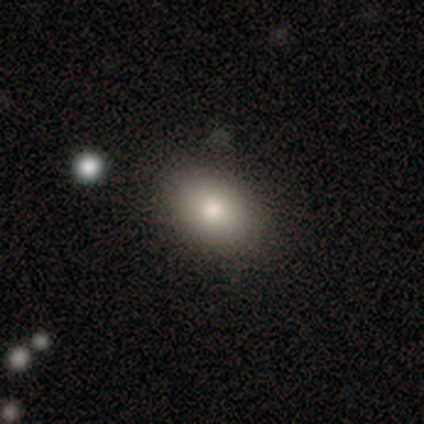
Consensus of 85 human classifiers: smooth 78%, featured or disk 16%, star or artifact 6%. Down the decision tree: how rounded — in between (85%); merging — none (89%).